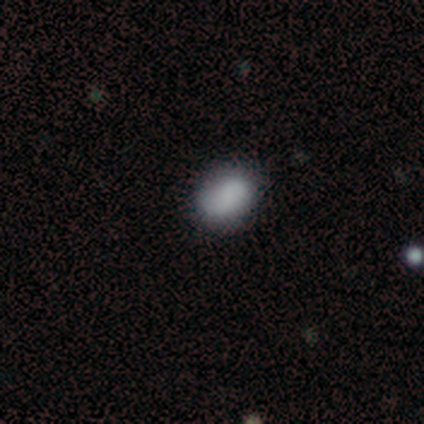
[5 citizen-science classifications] Smooth or featured? smooth (80%)
How rounded? in between (75%)
Merging? none (80%)